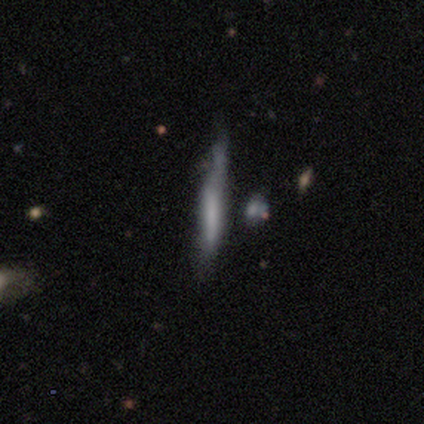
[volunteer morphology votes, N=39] smooth_or_featured: smooth (p=0.46) [alt: featured or disk p=0.38]
how_rounded: cigar-shaped (p=1.00)
merging: none (p=0.45) [alt: minor disturbance p=0.30]